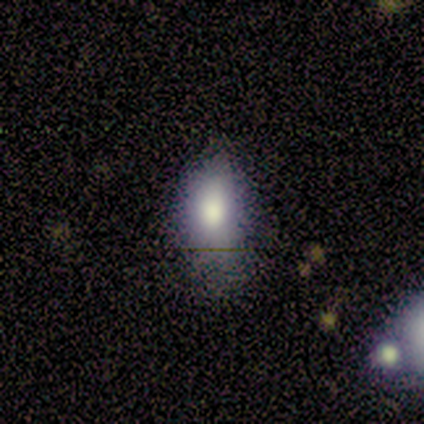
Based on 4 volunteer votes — Smooth or featured? 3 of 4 (75%) said smooth. How rounded? 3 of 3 (100%) said in between. Merging? 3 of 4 (75%) said minor disturbance.